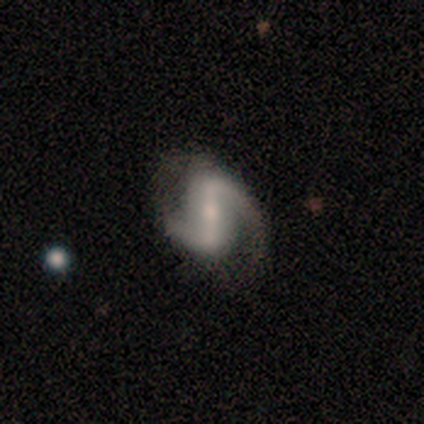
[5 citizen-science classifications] featured or disk 80%, smooth 20%, star or artifact 0%. Down the decision tree: edge-on disk — no (100%); bar — strong (75%); spiral arms — yes (100%); spiral arm count — 2 (100%); spiral winding — loose (100%); bulge size — moderate (50%, tied with small); merging — none (60%).